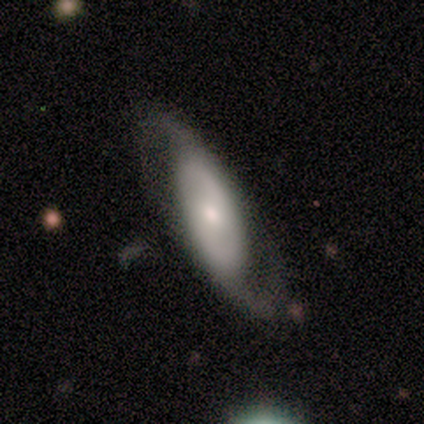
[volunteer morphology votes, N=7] smooth_or_featured: featured or disk (p=0.86) [alt: smooth p=0.14]
disk_edge_on: no (p=0.83) [alt: yes p=0.17]
bar: no (p=0.60) [alt: strong p=0.20]
has_spiral_arms: yes (p=1.00)
spiral_winding: loose (p=1.00)
spiral_arm_count: 2 (p=1.00)
bulge_size: small (p=0.60) [alt: moderate p=0.40]
merging: none (p=0.86) [alt: minor disturbance p=0.14]